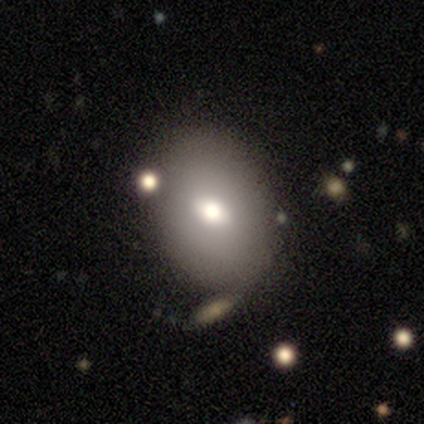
Smooth or featured: smooth — 55% (featured or disk — 34%)
How rounded: in between — 67% (round — 33%)
Merging: none — 71% (merger — 15%)